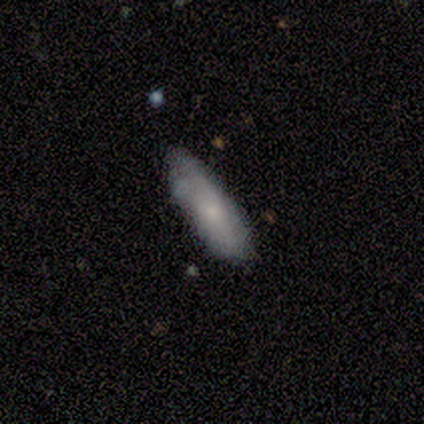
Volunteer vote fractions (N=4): This is clearly a smooth galaxy (100%). How rounded: likely in between (75%). Merging: likely minor disturbance (75%).